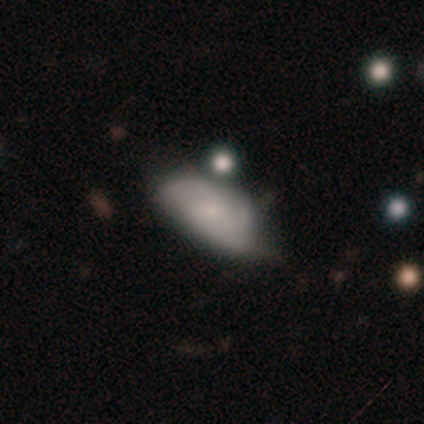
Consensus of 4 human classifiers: Smooth or featured: smooth — 100%
How rounded: in between — 100%
Merging: minor disturbance — 50% (major disturbance — 25%)